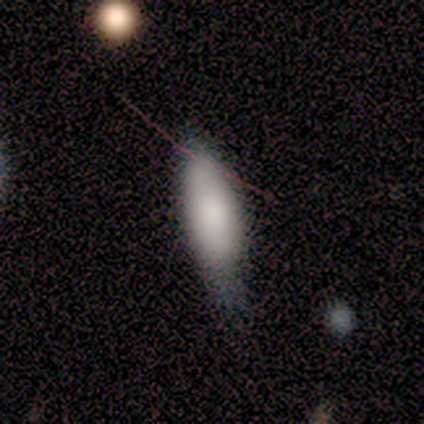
smooth_or_featured: smooth (p=0.67) [alt: featured or disk p=0.17]
how_rounded: in between (p=0.62) [alt: cigar-shaped p=0.38]
merging: none (p=0.40) [tied with: minor disturbance p=0.40]